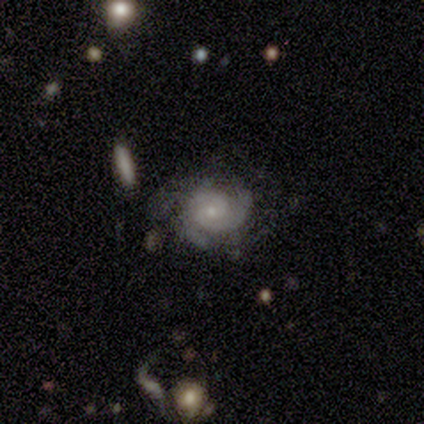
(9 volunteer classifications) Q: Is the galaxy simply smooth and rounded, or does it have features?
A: featured or disk — 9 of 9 (100%).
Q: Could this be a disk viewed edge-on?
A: no — 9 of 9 (100%).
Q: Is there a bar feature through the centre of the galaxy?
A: no — 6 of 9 (67%).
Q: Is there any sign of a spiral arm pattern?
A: yes — 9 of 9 (100%).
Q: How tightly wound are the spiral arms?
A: medium — 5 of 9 (56%).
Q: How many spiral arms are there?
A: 2 — 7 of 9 (78%).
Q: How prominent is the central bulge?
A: small — 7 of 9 (78%).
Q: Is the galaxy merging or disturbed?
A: none — 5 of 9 (56%).